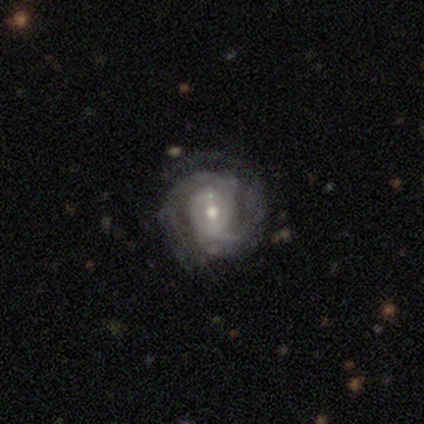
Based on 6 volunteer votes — featured or disk 83%, smooth 17%, star or artifact 0%. Down the decision tree: edge-on disk — no (100%); bar — no (60%); spiral arms — yes (80%); spiral arm count — can't tell (50%); spiral winding — medium (75%); bulge size — moderate (80%); merging — none (67%).